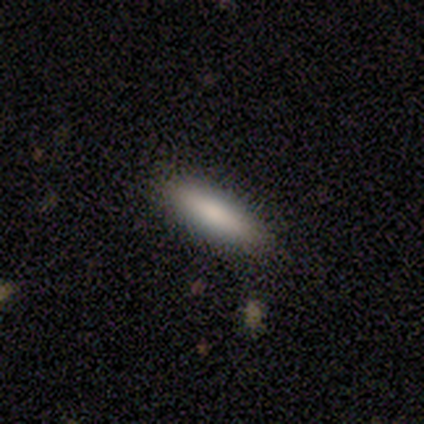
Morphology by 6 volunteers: Overall: smooth (83%). How rounded: cigar-shaped (80%). Merging: none (100%).